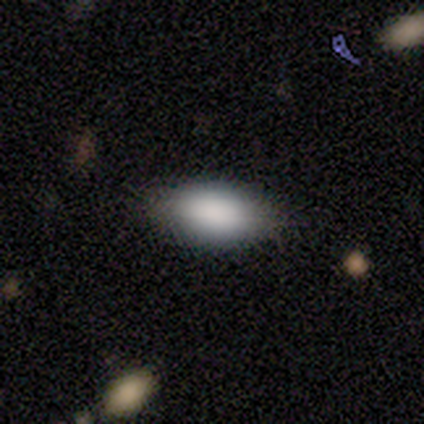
Morphology: type=smooth (80%); roundness=in between (100%); merging=none (75%).